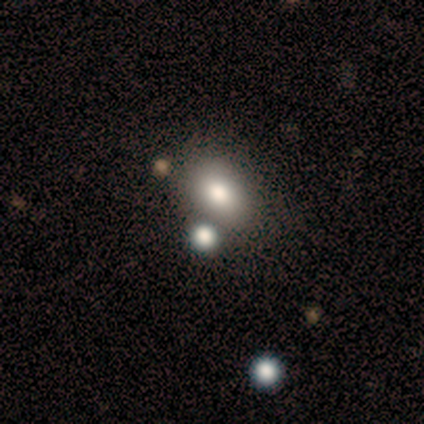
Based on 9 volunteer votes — Morphology: type=smooth (78%); roundness=in between (86%); merging=none (50%).